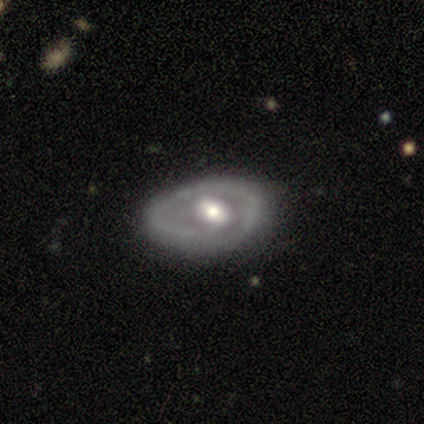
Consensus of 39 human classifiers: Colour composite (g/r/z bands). It shows a featured or disk galaxy (72%) with a weak bar (46%), no spiral arms (58%) and a moderate central bulge (65%). Merging: none (54%).